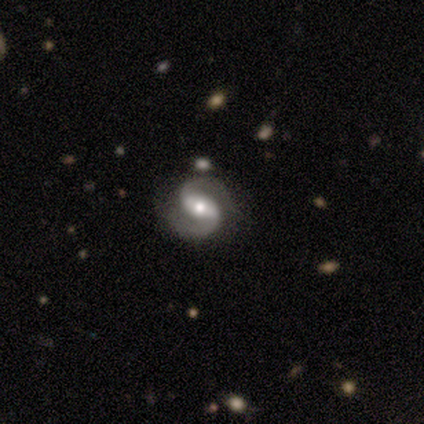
Smooth or featured: featured or disk — 100%
Edge-on disk: no — 100%
Bar: weak — 40% (tied with no — 40%)
Spiral arms: yes — 100%
Spiral winding: medium — 60% (loose — 40%)
Spiral arm count: 2 — 100%
Bulge size: moderate — 80% (small — 20%)
Merging: none — 100%